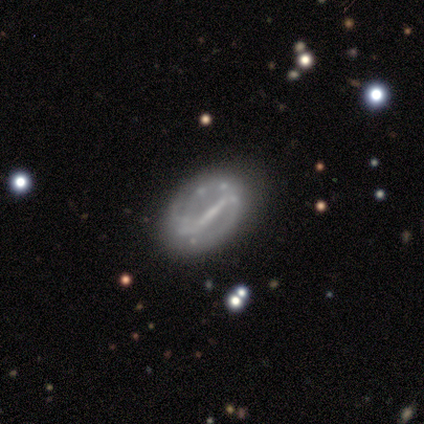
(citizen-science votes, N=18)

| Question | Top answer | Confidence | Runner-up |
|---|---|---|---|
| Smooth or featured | featured or disk | 83% | smooth (11%) |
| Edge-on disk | no | 93% | yes (7%) |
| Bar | strong | 100% | — |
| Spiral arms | yes | 100% | — |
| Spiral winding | tight | 43% | loose (36%) |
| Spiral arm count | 2 | 64% | can't tell (29%) |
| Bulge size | small | 43% | tied: none (43%) |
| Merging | none | 82% | minor disturbance (12%) |